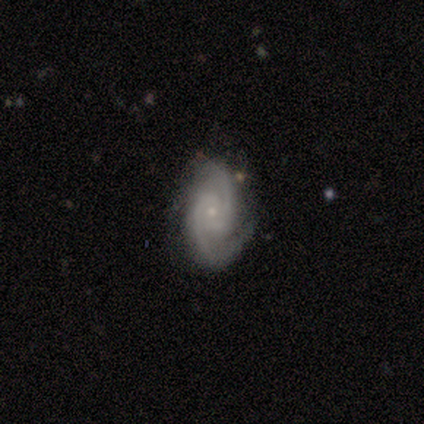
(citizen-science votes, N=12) A featured or disk galaxy (75%) with no bar (62%), 2 (100%) tight (38%, tied with medium) spiral arms (100%) and a small central bulge (75%).

Vote fractions:
- Smooth or featured? featured or disk: 75% / smooth: 25% / star or artifact: 0%
- Edge-on disk? no: 89% / yes: 11%
- Bar? no: 62% / weak: 25% / strong: 12%
- Spiral arms? yes: 100% / no: 0%
- Spiral winding? tight: 38% (tied) / medium: 38% (tied) / loose: 25%
- Spiral arm count? 2: 100% / 1: 0% / 3: 0% / 4: 0% / more than 4: 0% / can't tell: 0%
- Bulge size? small: 75% / moderate: 25% / dominant: 0% / large: 0% / none: 0%
- Merging? none: 75% / minor disturbance: 17% / major disturbance: 8% / merger: 0%